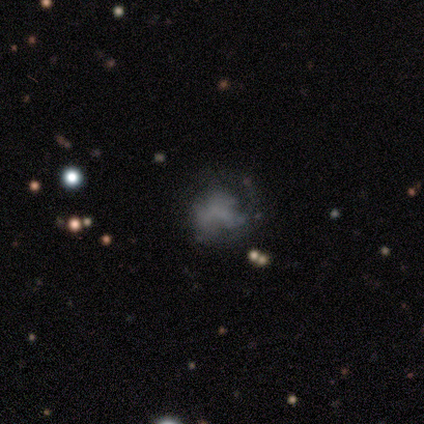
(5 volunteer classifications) Morphology: type=smooth (40%, tied with star or artifact); roundness=round (50%, tied with in between); merging=none (100%).